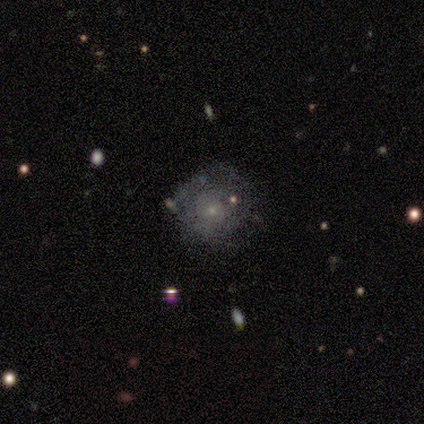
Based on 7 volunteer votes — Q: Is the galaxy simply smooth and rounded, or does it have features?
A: featured or disk — 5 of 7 (71%).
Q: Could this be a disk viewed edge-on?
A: no — 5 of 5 (100%).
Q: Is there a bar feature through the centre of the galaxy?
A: no — 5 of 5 (100%).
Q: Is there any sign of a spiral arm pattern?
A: yes — 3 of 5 (60%).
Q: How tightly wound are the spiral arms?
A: tight — 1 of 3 (33%, tied with medium and loose).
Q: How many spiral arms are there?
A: can't tell — 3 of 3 (100%).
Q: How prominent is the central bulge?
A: small — 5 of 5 (100%).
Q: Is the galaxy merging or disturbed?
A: none — 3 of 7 (43%, tied with minor disturbance).